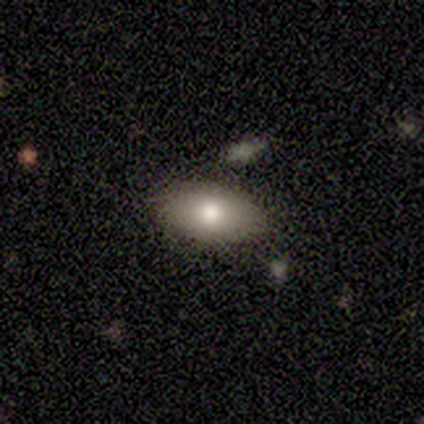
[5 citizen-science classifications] A smooth galaxy with no disk features (60%) that is in between round and cigar-shaped (67%). Merging: none (100%).